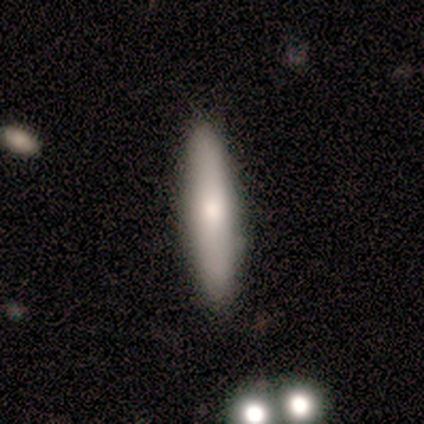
Q: Smooth or featured?
A: smooth (75%); runner-up: featured or disk (25%)
Q: How rounded?
A: cigar-shaped (67%); runner-up: in between (33%)
Q: Merging?
A: none (50%); tied with: minor disturbance (50%)